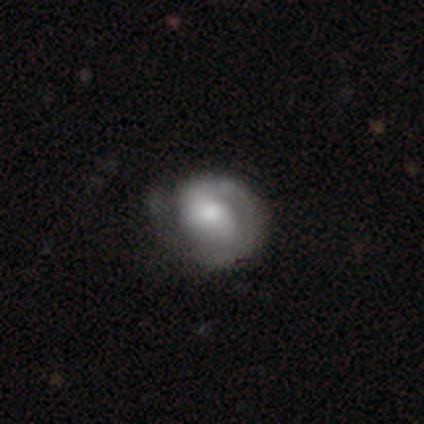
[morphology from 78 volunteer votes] Volunteers were most divided on "bar" (2-way tie): weak: 44%, no: 44%, strong: 12%. Remaining: edge-on disk — no (98%); spiral arms — yes (78%); spiral winding — tight (74%); spiral arm count — 1 (67%); smooth or featured — featured or disk (65%); bulge size — moderate (46%); merging — none (32%).